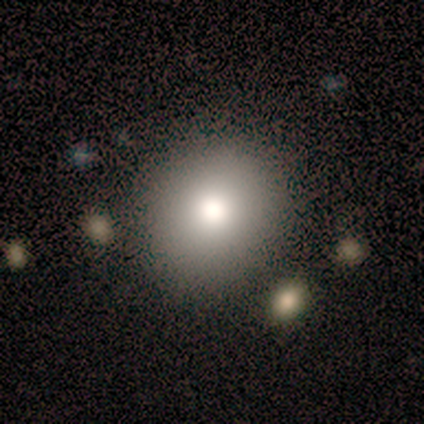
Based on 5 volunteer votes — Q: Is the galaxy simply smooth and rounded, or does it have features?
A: smooth — 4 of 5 (80%).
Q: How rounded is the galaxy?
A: round — 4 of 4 (100%).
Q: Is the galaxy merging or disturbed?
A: none — 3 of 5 (60%).